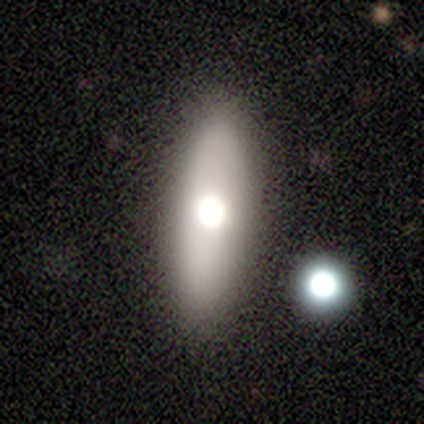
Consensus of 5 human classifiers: smooth-or-featured: smooth: 80% | featured or disk: 20% | star or artifact: 0%
  how-rounded: in between: 75% | cigar-shaped: 25% | round: 0%
  merging: none: 100% | minor disturbance: 0% | major disturbance: 0% | merger: 0%